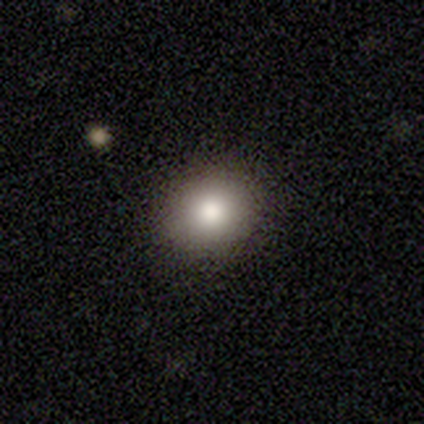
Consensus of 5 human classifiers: Morphology: type=smooth (60%); roundness=in between (67%); merging=none (100%).